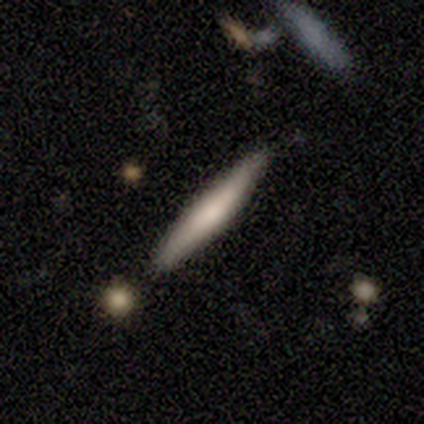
This is clearly a smooth galaxy (80%). How rounded: clearly cigar-shaped (100%). Merging: clearly none (100%).